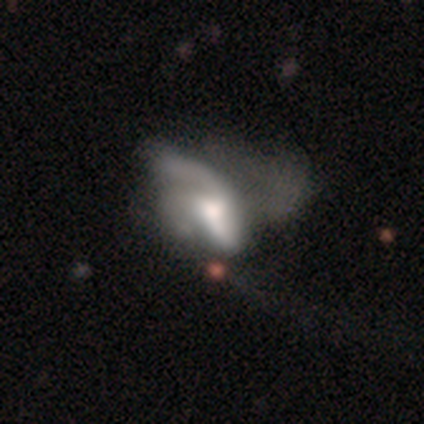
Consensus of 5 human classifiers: Smooth or featured? featured or disk (80%)
Edge-on disk? no (100%)
Bar? no (100%)
Spiral arms? yes (75%)
Spiral winding? loose (67%)
Spiral arm count? 2 (100%)
Bulge size? dominant (25%, tied with large, moderate and small)
Merging? major disturbance (100%)